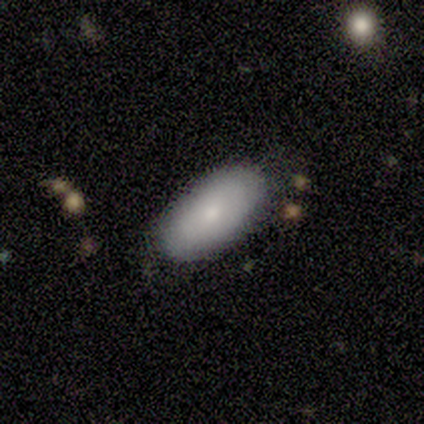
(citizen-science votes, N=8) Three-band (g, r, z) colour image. It shows a smooth galaxy with no disk features (75%) that is in between round and cigar-shaped (83%). Merging: none (100%).